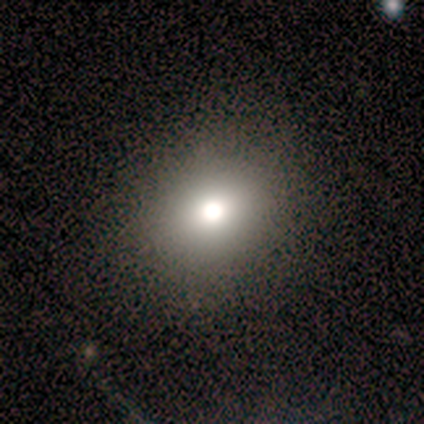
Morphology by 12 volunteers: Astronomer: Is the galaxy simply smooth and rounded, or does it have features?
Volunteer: smooth — 58%.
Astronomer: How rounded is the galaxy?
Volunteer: round — 86%.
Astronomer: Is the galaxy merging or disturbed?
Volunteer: none — 88%.